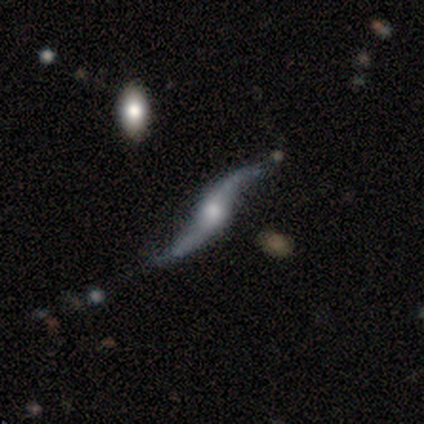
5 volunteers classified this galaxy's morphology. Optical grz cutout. It shows a featured or disk galaxy (100%) with no bar (67%), 2 (100%) loose (100%) spiral arms (100%) and a large central bulge (33%, tied with moderate and small). Merging: none (80%).